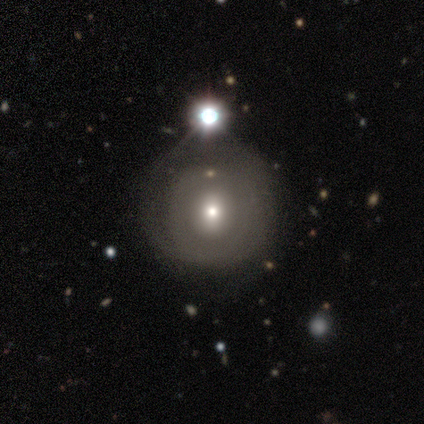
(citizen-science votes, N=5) Smooth or featured: star or artifact — 60% (smooth — 20%)